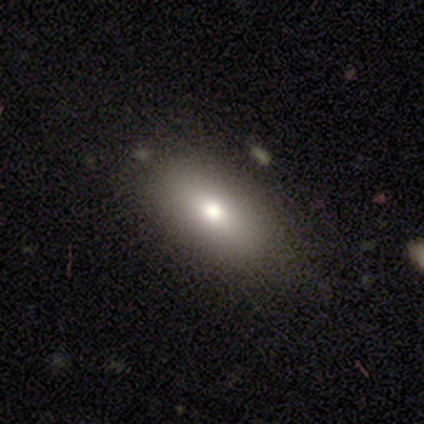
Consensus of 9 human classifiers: Smooth or featured: smooth — 78% (featured or disk — 11%)
How rounded: in between — 100%
Merging: none — 88% (minor disturbance — 12%)